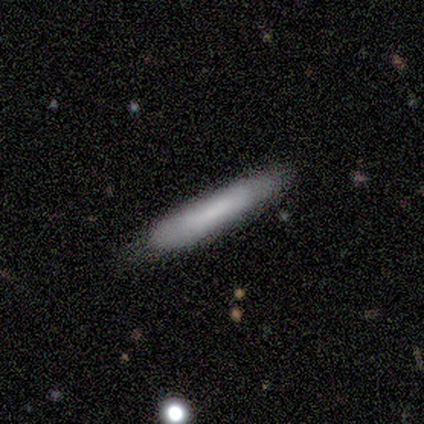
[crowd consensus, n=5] Smooth or featured? smooth (80%)
How rounded? cigar-shaped (100%)
Merging? none (80%)